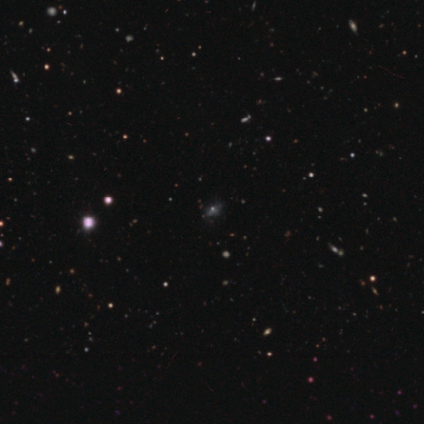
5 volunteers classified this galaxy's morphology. This is marginally a featured or disk galaxy (40%, tied with star or artifact). It is clearly not viewed edge-on (100%). Bar: possibly weak (50%, tied with no). Spiral arm pattern: possibly yes (50%, tied with no). Spiral arm count: clearly can't tell (100%). Spiral winding: clearly loose (100%). Central bulge: clearly moderate (100%). Merging: marginally none (33%, tied with major disturbance and merger).